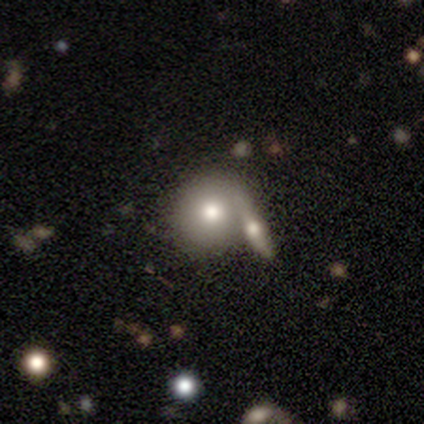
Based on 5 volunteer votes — smooth-or-featured: smooth: 60% | featured or disk: 20% | star or artifact: 20%
  how-rounded: round: 100% | in between: 0% | cigar-shaped: 0%
  merging: none: 75% | merger: 25% | minor disturbance: 0% | major disturbance: 0%